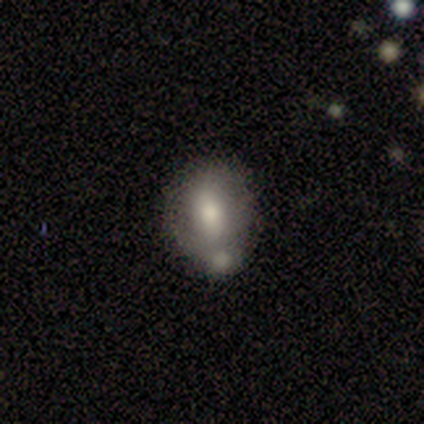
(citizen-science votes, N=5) Smooth or featured?
  - featured or disk: 60% *
  - smooth: 40%
  - star or artifact: 0%
Edge-on disk?
  - no: 100% *
  - yes: 0%
Bar?
  - no: 67% *
  - strong: 33%
  - weak: 0%
Spiral arms?
  - no: 100% *
  - yes: 0%
Bulge size?
  - moderate: 100% *
  - dominant: 0%
  - large: 0%
  - small: 0%
  - none: 0%
Merging?
  - none: 60% *
  - minor disturbance: 20%
  - merger: 20%
  - major disturbance: 0%